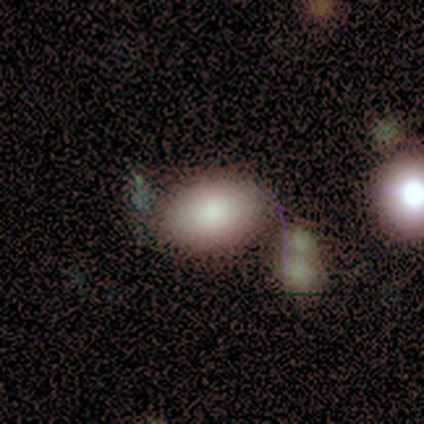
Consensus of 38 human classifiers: Smooth or featured? smooth (74%)
How rounded? in between (86%)
Merging? none (55%)